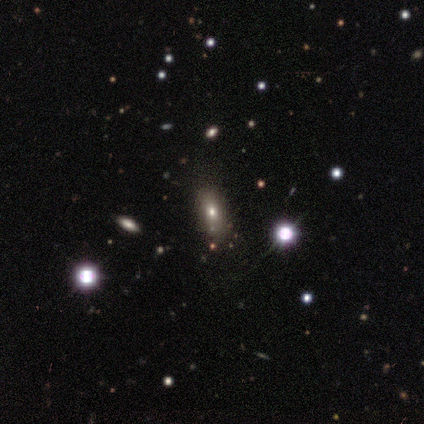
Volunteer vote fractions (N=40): This is possibly a smooth galaxy (48%). How rounded: clearly in between (100%). Merging: likely none (79%).